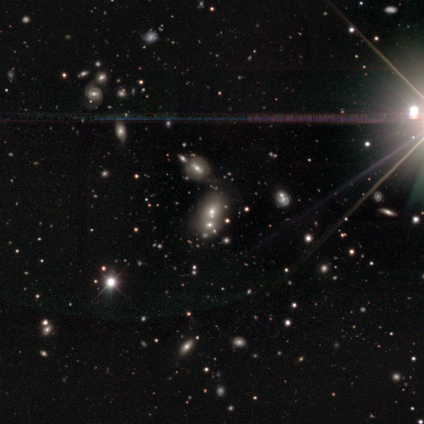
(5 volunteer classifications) Overall: star or artifact (100%).